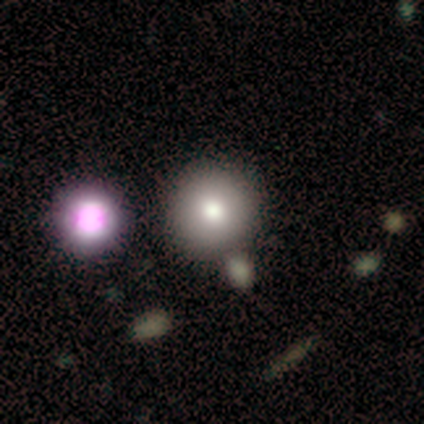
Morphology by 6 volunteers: This is clearly a smooth galaxy (83%). How rounded: clearly round (80%). Merging: possibly none (50%, tied with merger).